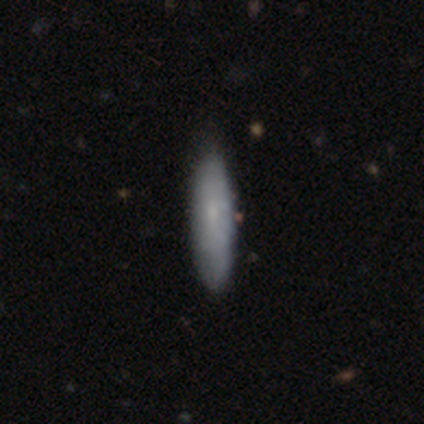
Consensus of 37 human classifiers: Smooth or featured? 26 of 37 (70%) said smooth. How rounded? 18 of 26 (69%) said cigar-shaped. Merging? 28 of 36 (78%) said none.